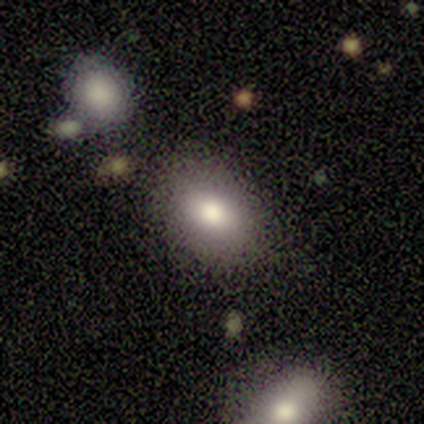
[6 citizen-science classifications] This appears to be a smooth galaxy with no disk features (83%) that is in between round and cigar-shaped (100%). Merging: none (100%).